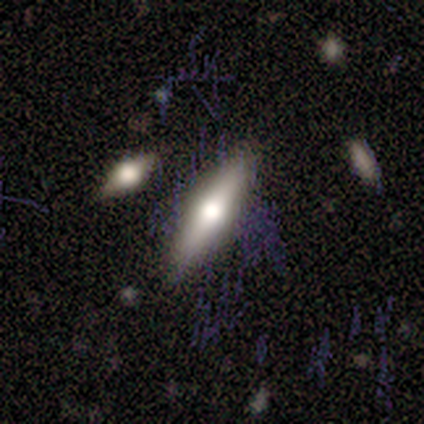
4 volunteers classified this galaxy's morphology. Smooth or featured? featured or disk (75%)
Edge-on disk? yes (100%)
Edge-on bulge? rounded (100%)
Merging? none (75%)